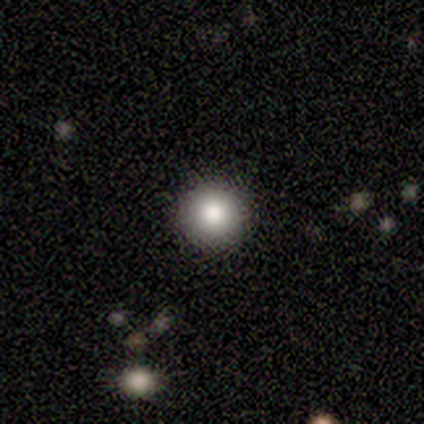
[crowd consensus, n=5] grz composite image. It shows a smooth galaxy with no disk features (60%) that is round (100%). Merging: none (100%).